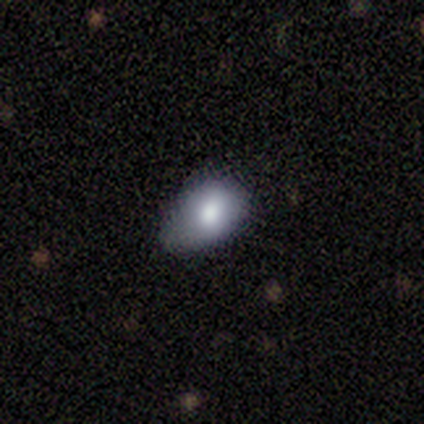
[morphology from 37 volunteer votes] Smooth or featured?
  - smooth: 84% *
  - featured or disk: 11%
  - star or artifact: 5%
How rounded?
  - in between: 87% *
  - round: 13%
  - cigar-shaped: 0%
Merging?
  - minor disturbance: 54% *
  - none: 34%
  - major disturbance: 11%
  - merger: 0%